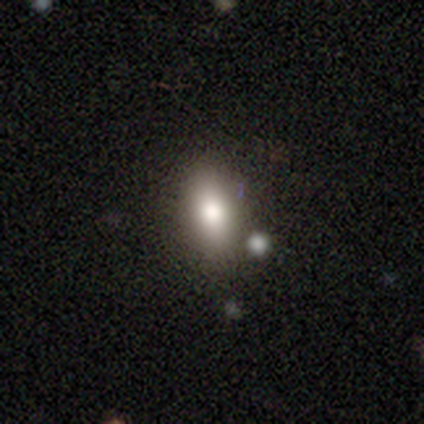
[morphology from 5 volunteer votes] smooth_or_featured: smooth (p=0.40) [tied with: featured or disk p=0.40]
how_rounded: in between (p=1.00)
merging: none (p=1.00)